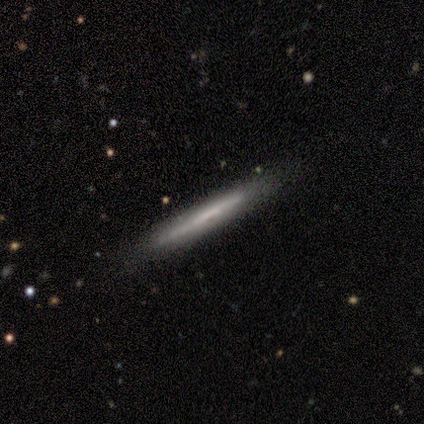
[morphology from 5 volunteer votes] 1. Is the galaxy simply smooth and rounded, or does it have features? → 60% smooth, 40% featured or disk, 0% star or artifact.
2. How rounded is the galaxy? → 100% cigar-shaped, 0% round, 0% in between.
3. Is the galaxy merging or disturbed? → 80% none, 20% minor disturbance, 0% major disturbance, 0% merger.